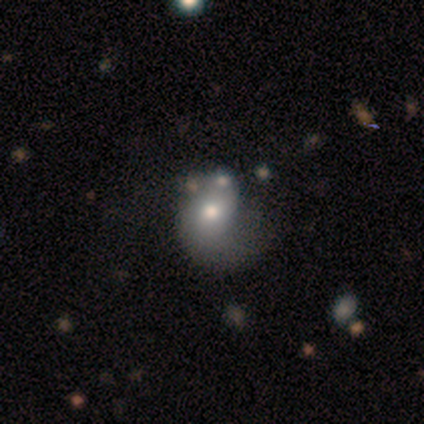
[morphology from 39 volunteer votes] type=smooth (49%); roundness=in between (58%); merging=major disturbance (47%).